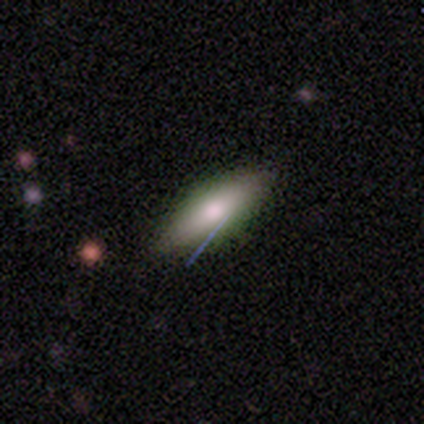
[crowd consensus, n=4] A smooth galaxy with no disk features (100%) that is in between round and cigar-shaped (75%).

Vote fractions:
- Smooth or featured? smooth: 100% / featured or disk: 0% / star or artifact: 0%
- How rounded? in between: 75% / cigar-shaped: 25% / round: 0%
- Merging? none: 75% / minor disturbance: 25% / major disturbance: 0% / merger: 0%